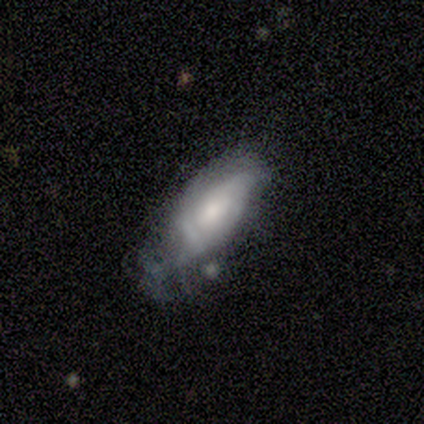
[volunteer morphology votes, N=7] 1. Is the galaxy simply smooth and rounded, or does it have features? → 57% featured or disk, 29% smooth, 14% star or artifact.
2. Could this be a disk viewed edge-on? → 100% no, 0% yes.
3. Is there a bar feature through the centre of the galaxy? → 75% no, 25% weak, 0% strong.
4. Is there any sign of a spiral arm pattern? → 75% no, 25% yes.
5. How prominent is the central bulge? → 75% moderate, 25% small, 0% dominant, 0% large, 0% none.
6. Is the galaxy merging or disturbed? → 50% minor disturbance, 33% major disturbance, 17% none, 0% merger.